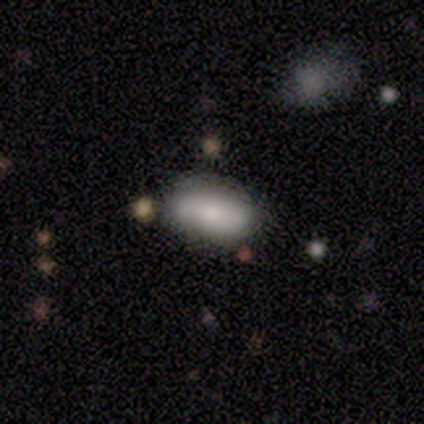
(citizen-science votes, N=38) Smooth or featured?
  - smooth: 82% *
  - star or artifact: 13%
  - featured or disk: 5%
How rounded?
  - in between: 87% *
  - cigar-shaped: 10%
  - round: 3%
Merging?
  - none: 88% *
  - minor disturbance: 6%
  - merger: 6%
  - major disturbance: 0%